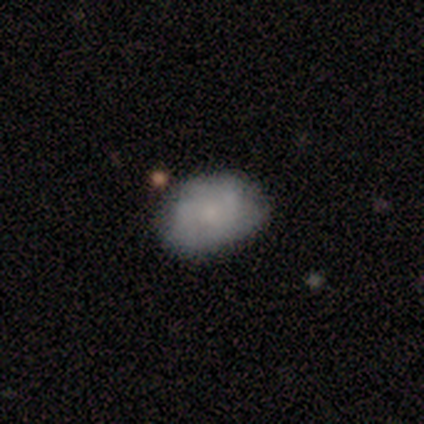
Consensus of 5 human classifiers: smooth_or_featured: smooth (p=0.80) [alt: featured or disk p=0.20]
how_rounded: in between (p=0.75) [alt: round p=0.25]
merging: none (p=0.80) [alt: minor disturbance p=0.20]